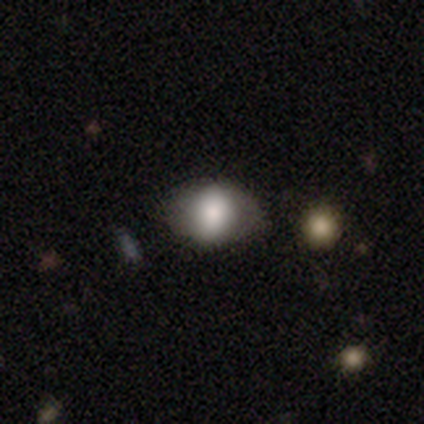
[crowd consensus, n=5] A smooth galaxy with no disk features (100%) that is in between round and cigar-shaped (80%). Merging: none (60%).